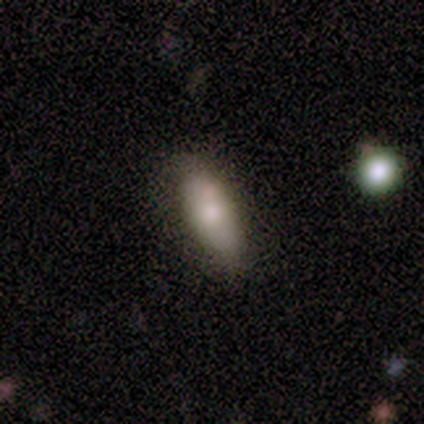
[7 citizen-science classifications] Morphology: type=featured or disk (57%); edge-on=no (75%); bar=no (67%); spiral arms=no (100%); bulge=moderate (100%); merging=none (43%, tied with minor disturbance).